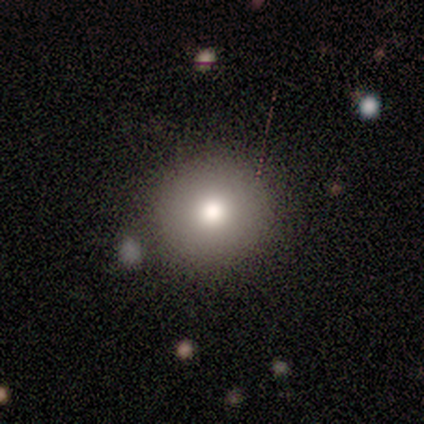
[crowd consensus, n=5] smooth_or_featured: smooth (p=1.00)
how_rounded: round (p=1.00)
merging: none (p=1.00)